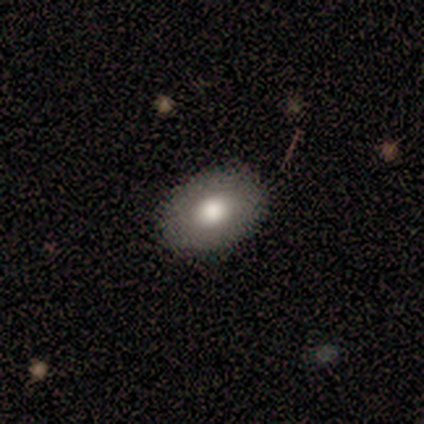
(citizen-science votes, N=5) A smooth galaxy with no disk features (100%) that is in between round and cigar-shaped (100%).

Vote fractions:
- Smooth or featured? smooth: 100% / featured or disk: 0% / star or artifact: 0%
- How rounded? in between: 100% / round: 0% / cigar-shaped: 0%
- Merging? none: 80% / minor disturbance: 20% / major disturbance: 0% / merger: 0%